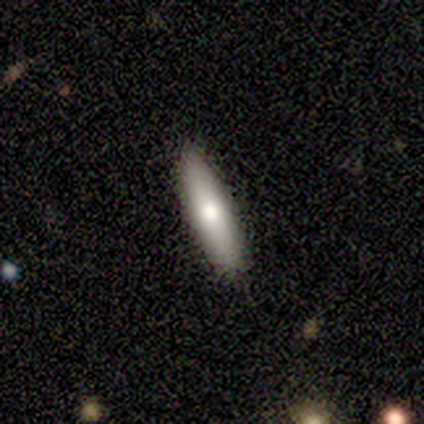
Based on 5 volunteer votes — Q: Smooth or featured?
A: smooth (100%)
Q: How rounded?
A: cigar-shaped (100%)
Q: Merging?
A: none (100%)